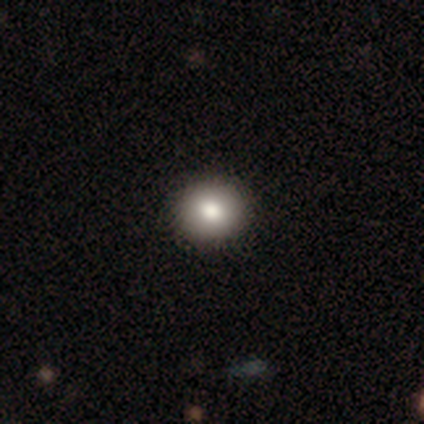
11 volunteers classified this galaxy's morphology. Smooth or featured: smooth — 82% (featured or disk — 18%)
How rounded: round — 89% (in between — 11%)
Merging: none — 100%